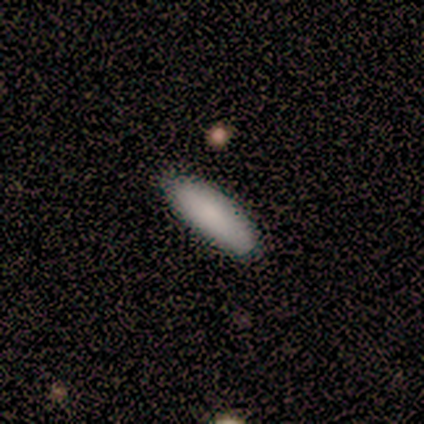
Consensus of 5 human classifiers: This appears to be a smooth galaxy with no disk features (60%) that is in between round and cigar-shaped (67%). Merging: none (100%).